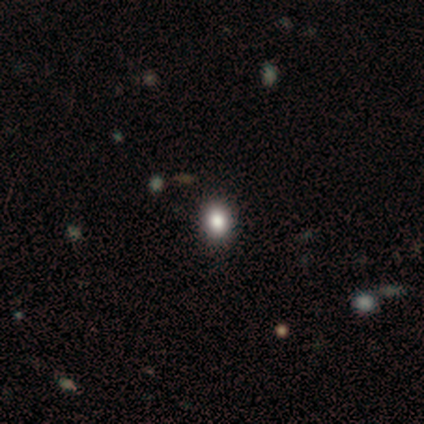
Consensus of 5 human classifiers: Smooth or featured: star or artifact — 60% (smooth — 20%)